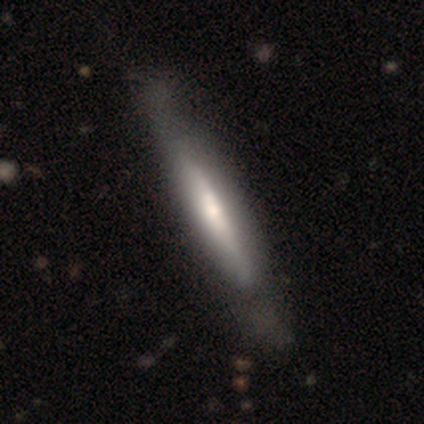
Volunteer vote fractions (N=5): This appears to be a featured or disk galaxy (80%) viewed edge-on (50%, tied with no) with no central bulge (50%, tied with rounded). Merging: minor disturbance (80%).